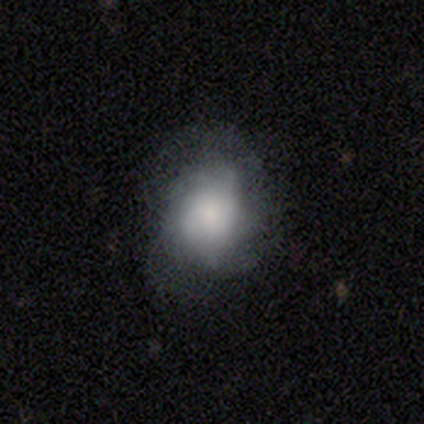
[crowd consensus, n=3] Smooth or featured? 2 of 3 (67%) said smooth. How rounded? 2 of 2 (100%) said round. Merging? 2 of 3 (67%) said none.